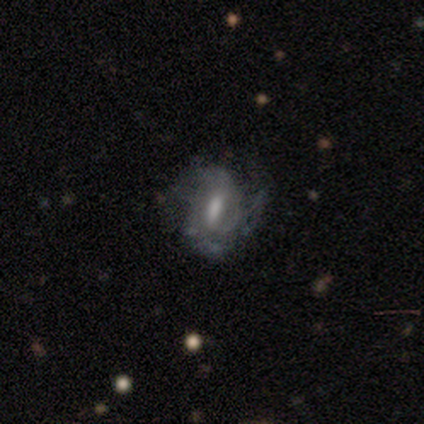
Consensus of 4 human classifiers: Overall: featured or disk (100%). Edge-on disk: no (100%). Bar: strong (50%; weak 25%). Spiral arms: yes (100%). Spiral arm count: 2 (50%, tied with can't tell). Spiral winding: medium (50%; tight 25%). Bulge size: small (50%; large 25%). Merging: none (75%).